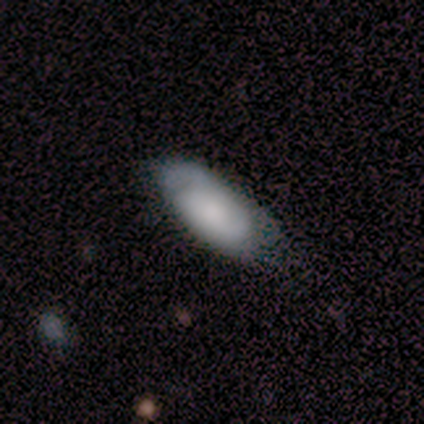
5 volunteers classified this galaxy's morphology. This appears to be a featured or disk galaxy (80%) with no bar (100%), 2 (50%, tied with can't tell) tight (50%) spiral arms (100%) and a small central bulge (50%). Merging: none (60%).